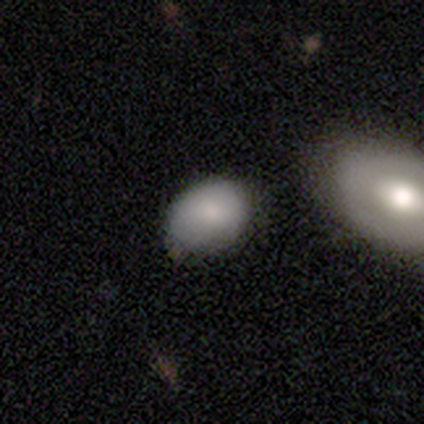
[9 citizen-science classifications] Volunteers were most divided on "merging": none: 67%, minor disturbance: 22%, merger: 11%, major disturbance: 0%. More confident: smooth or featured — smooth (100%); how rounded — in between (100%).